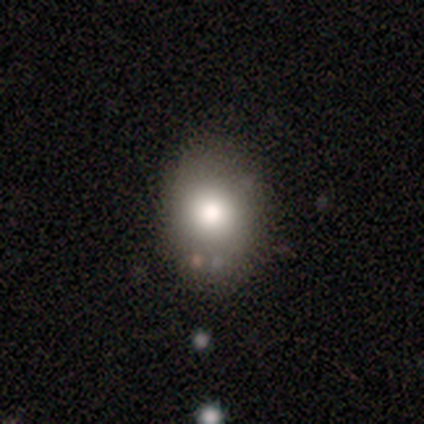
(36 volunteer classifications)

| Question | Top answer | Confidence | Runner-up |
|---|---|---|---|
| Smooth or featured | smooth | 75% | star or artifact (14%) |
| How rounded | in between | 59% | round (41%) |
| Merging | none | 81% | minor disturbance (13%) |